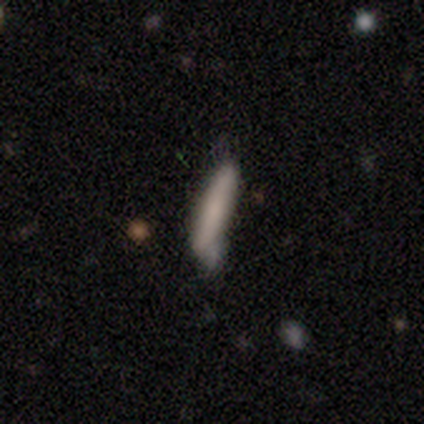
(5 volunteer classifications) Smooth or featured? smooth (100%)
How rounded? cigar-shaped (80%)
Merging? minor disturbance (60%)